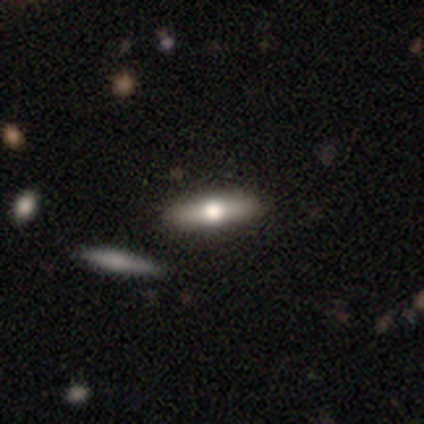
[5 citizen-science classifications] Morphology: type=smooth (80%); roundness=cigar-shaped (100%); merging=none (80%).